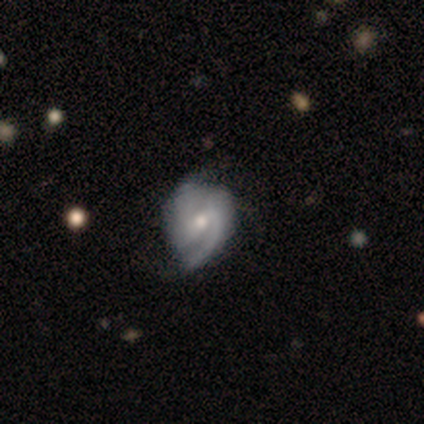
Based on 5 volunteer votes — smooth-or-featured: featured or disk: 100% | smooth: 0% | star or artifact: 0%
  disk-edge-on: no: 80% | yes: 20%
    bar: no: 50% | strong: 25% | weak: 25%
    has-spiral-arms: yes: 100% | no: 0%
      spiral-winding: tight: 75% | medium: 25% | loose: 0%
      spiral-arm-count: 2: 50% | 1: 25% | can't tell: 25% | 3: 0% | 4: 0% | more than 4: 0%
    bulge-size: small: 75% | moderate: 25% | dominant: 0% | large: 0% | none: 0%
  merging: none: 80% | minor disturbance: 20% | major disturbance: 0% | merger: 0%